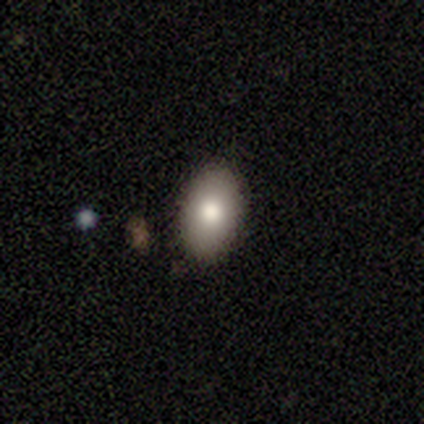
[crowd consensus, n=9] Morphology: type=smooth (89%); roundness=in between (88%); merging=none (67%).